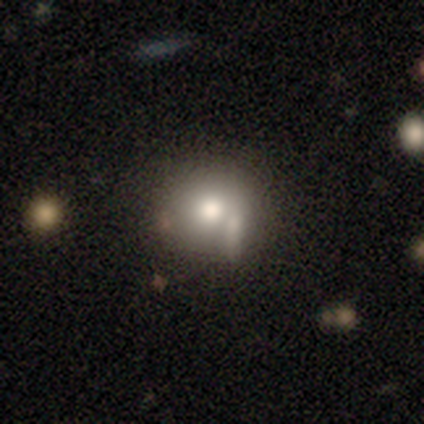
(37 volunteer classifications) Smooth or featured? smooth (73%)
How rounded? round (89%)
Merging? none (48%)